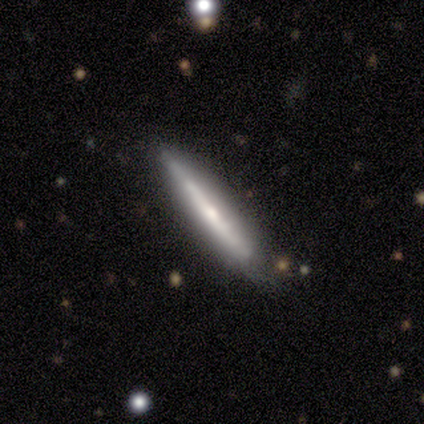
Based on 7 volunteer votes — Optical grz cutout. It shows a featured or disk galaxy (100%) viewed edge-on (100%) with a rounded central bulge (71%). Merging: none (57%).